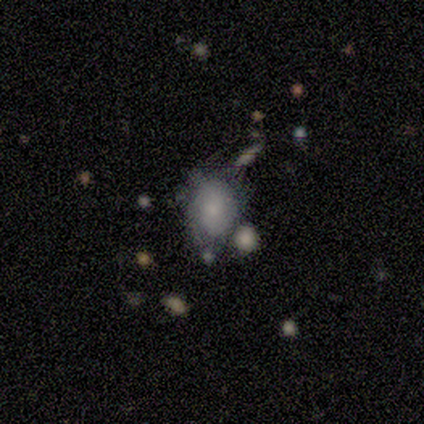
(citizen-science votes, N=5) Q: Smooth or featured?
A: smooth (60%); runner-up: featured or disk (40%)
Q: How rounded?
A: in between (67%); runner-up: round (33%)
Q: Merging?
A: minor disturbance (40%); runner-up: none (20%)